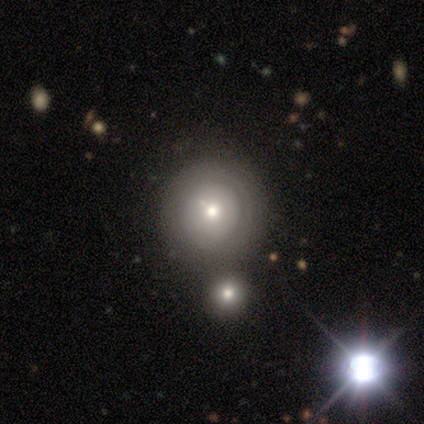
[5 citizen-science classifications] Q: Smooth or featured?
A: featured or disk (60%); runner-up: smooth (40%)
Q: Edge-on disk?
A: no (100%)
Q: Bar?
A: no (100%)
Q: Spiral arms?
A: no (100%)
Q: Bulge size?
A: moderate (100%)
Q: Merging?
A: none (80%); runner-up: minor disturbance (20%)